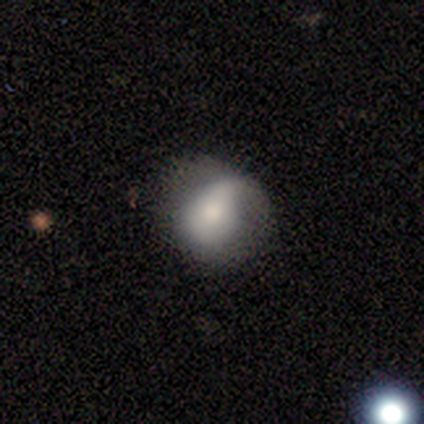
A smooth galaxy with no disk features (80%) that is round (50%, tied with in between). Merging: minor disturbance (80%).